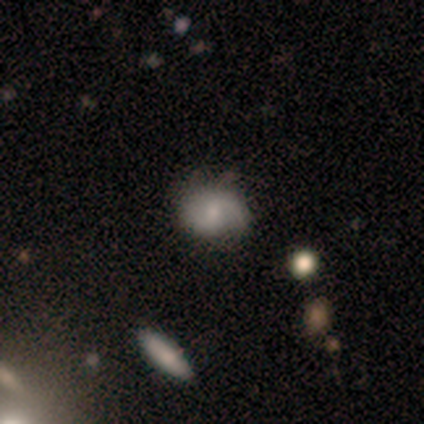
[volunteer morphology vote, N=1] smooth 100%, featured or disk 0%, star or artifact 0%. Down the decision tree: how rounded — in between (100%); merging — none (100%).